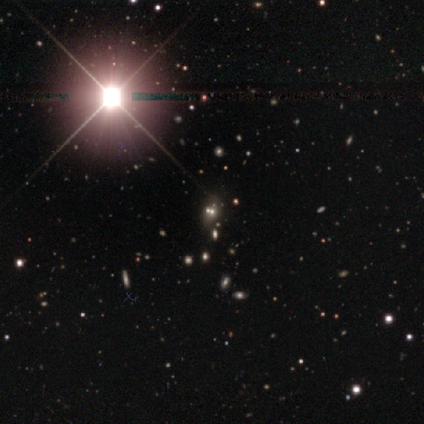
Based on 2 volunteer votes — smooth-or-featured: star or artifact: 100% | smooth: 0% | featured or disk: 0%